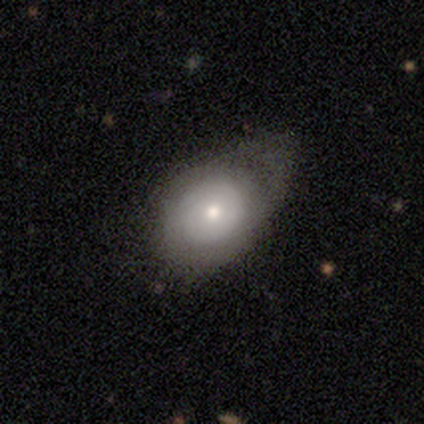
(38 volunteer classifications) Overall: smooth (58%; featured or disk 37%). How rounded: in between (73%). Merging: minor disturbance (42%; major disturbance 31%).